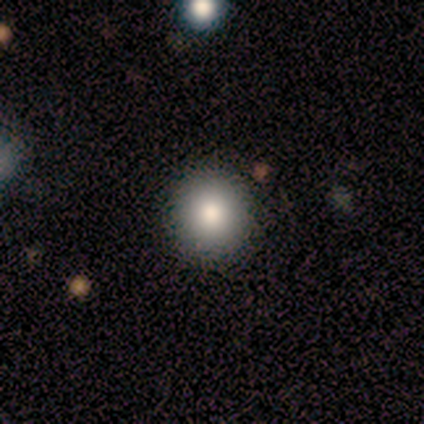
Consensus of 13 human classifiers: Q: Smooth or featured?
A: smooth (69%); runner-up: featured or disk (15%)
Q: How rounded?
A: round (100%)
Q: Merging?
A: none (82%); runner-up: minor disturbance (9%)